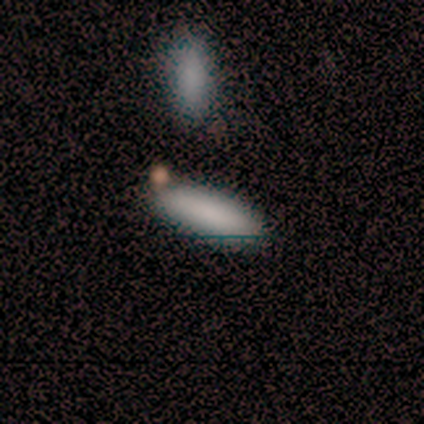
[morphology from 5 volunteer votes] type=smooth (80%); roundness=cigar-shaped (75%); merging=none (80%).